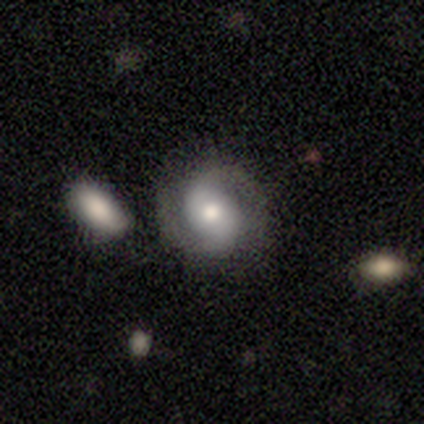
Smooth or featured? 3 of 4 (75%) said featured or disk. Edge-on disk? 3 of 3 (100%) said no. Bar? 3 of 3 (100%) said no. Spiral arms? 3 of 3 (100%) said yes. Spiral winding? 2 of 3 (67%) said medium. Spiral arm count? 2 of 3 (67%) said 2. Bulge size? 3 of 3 (100%) said moderate. Merging? 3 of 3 (100%) said none.